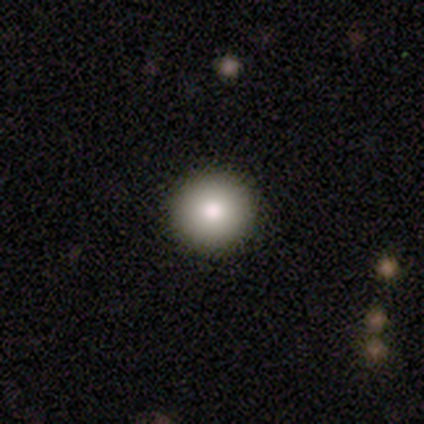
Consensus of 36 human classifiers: Smooth or featured?
  - smooth: 81% *
  - featured or disk: 14%
  - star or artifact: 6%
How rounded?
  - round: 100% *
  - in between: 0%
  - cigar-shaped: 0%
Merging?
  - none: 97% *
  - major disturbance: 3%
  - minor disturbance: 0%
  - merger: 0%